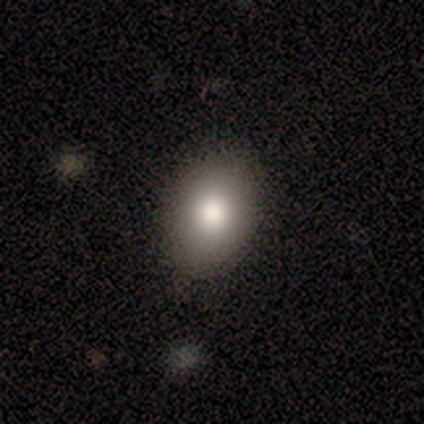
Smooth or featured? 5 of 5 (100%) said smooth. How rounded? 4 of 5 (80%) said in between. Merging? 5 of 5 (100%) said none.